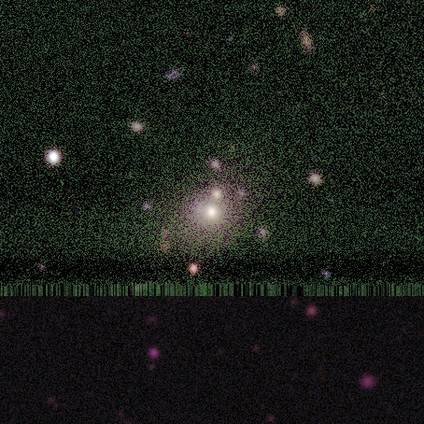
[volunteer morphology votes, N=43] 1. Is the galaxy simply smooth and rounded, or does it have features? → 51% smooth, 30% star or artifact, 19% featured or disk.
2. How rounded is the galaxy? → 82% round, 18% in between, 0% cigar-shaped.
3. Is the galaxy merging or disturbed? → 63% none, 17% minor disturbance, 13% merger, 7% major disturbance.